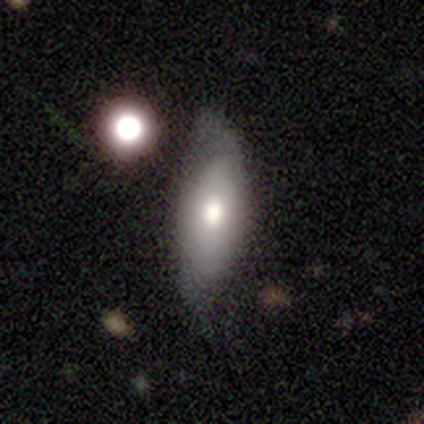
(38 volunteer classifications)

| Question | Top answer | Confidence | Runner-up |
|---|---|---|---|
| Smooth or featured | smooth | 50% | featured or disk (37%) |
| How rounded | in between | 68% | cigar-shaped (32%) |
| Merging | none | 64% | minor disturbance (27%) |